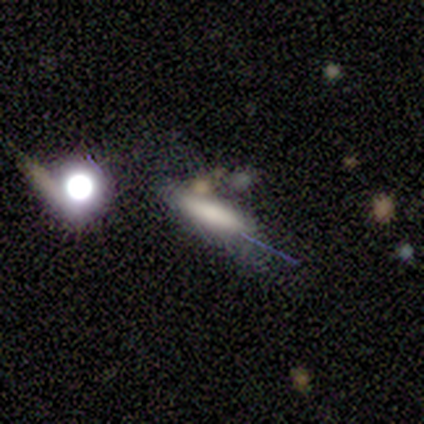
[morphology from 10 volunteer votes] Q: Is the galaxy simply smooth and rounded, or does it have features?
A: smooth — 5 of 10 (50%).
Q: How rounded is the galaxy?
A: cigar-shaped — 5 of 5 (100%).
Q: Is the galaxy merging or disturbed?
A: none — 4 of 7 (57%).